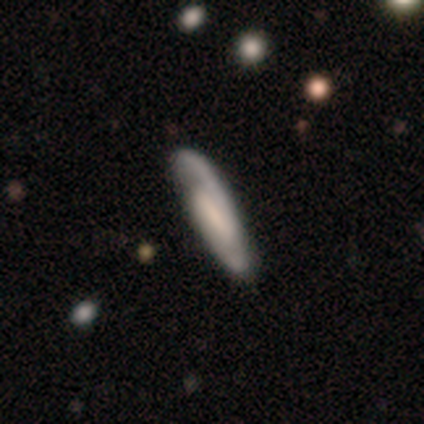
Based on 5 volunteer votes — Smooth or featured? featured or disk (80%)
Edge-on disk? no (75%)
Bar? strong (67%)
Spiral arms? yes (100%)
Spiral winding? medium (67%)
Spiral arm count? 2 (100%)
Bulge size? small (67%)
Merging? none (60%)